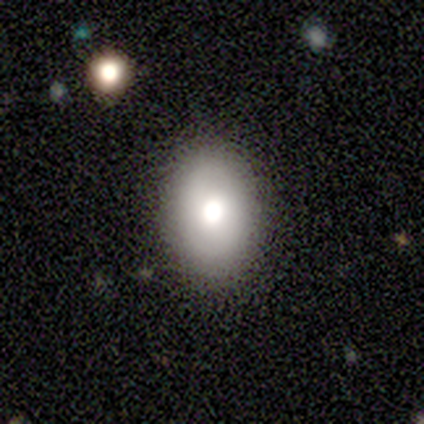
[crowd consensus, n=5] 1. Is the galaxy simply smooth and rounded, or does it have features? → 80% smooth, 20% featured or disk, 0% star or artifact.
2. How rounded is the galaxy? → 75% in between, 25% round, 0% cigar-shaped.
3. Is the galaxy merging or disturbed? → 100% none, 0% minor disturbance, 0% major disturbance, 0% merger.